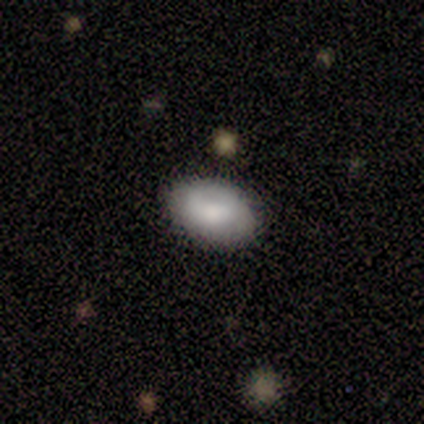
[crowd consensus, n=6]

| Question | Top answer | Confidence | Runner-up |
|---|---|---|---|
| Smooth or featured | smooth | 100% | — |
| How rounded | in between | 83% | cigar-shaped (17%) |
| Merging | none | 83% | major disturbance (17%) |